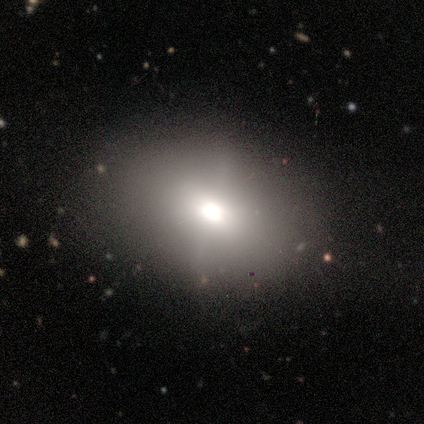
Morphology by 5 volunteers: This appears to be a smooth galaxy with no disk features (60%) that is in between round and cigar-shaped (67%). Merging: none (100%).